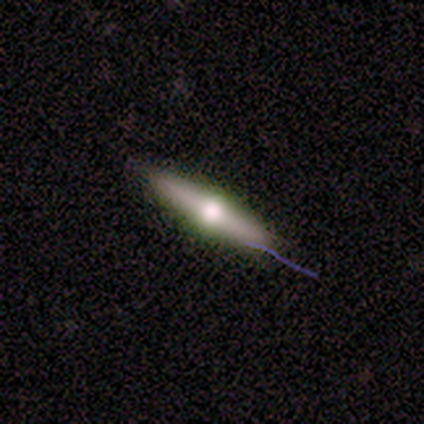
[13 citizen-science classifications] smooth_or_featured: featured or disk (p=0.69) [alt: smooth p=0.31]
disk_edge_on: yes (p=1.00)
edge_on_bulge: rounded (p=0.89) [alt: none p=0.11]
merging: none (p=0.85) [alt: minor disturbance p=0.15]